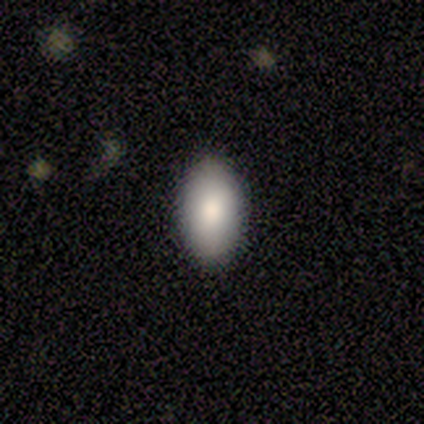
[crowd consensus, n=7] Smooth or featured: smooth — 86% (featured or disk — 14%)
How rounded: in between — 83% (round — 17%)
Merging: none — 86% (minor disturbance — 14%)